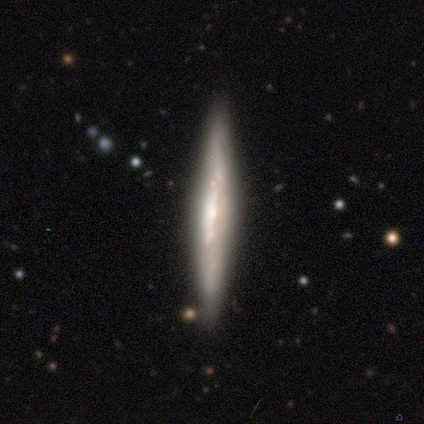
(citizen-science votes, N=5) Smooth or featured?
  - featured or disk: 100% *
  - smooth: 0%
  - star or artifact: 0%
Edge-on disk?
  - yes: 100% *
  - no: 0%
Edge-on bulge?
  - boxy: 60% *
  - none: 40%
  - rounded: 0%
Merging?
  - none: 100% *
  - minor disturbance: 0%
  - major disturbance: 0%
  - merger: 0%